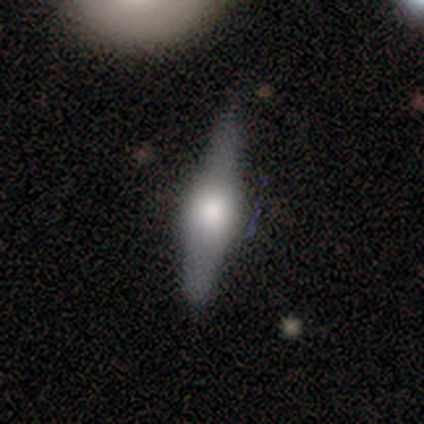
Morphology: type=featured or disk (75%); edge-on=yes (67%); edge-on bulge=boxy (100%); merging=none (50%, tied with minor disturbance).